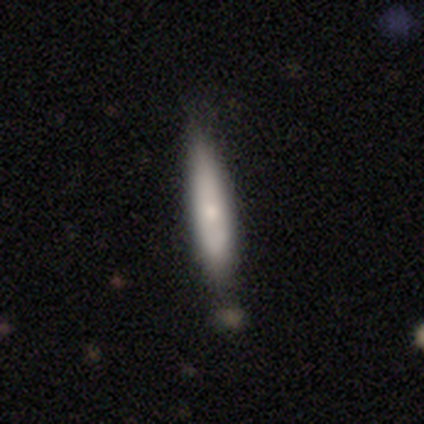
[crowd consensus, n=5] Q: Smooth or featured?
A: smooth (80%); runner-up: featured or disk (20%)
Q: How rounded?
A: cigar-shaped (100%)
Q: Merging?
A: none (60%); runner-up: minor disturbance (20%)